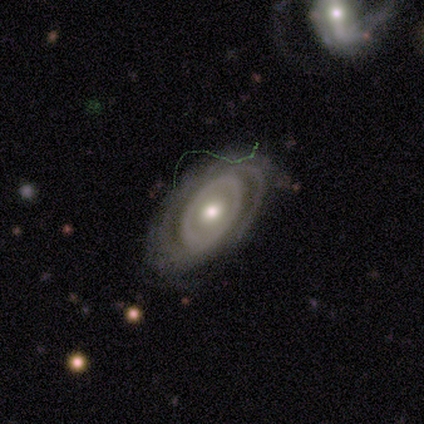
featured or disk 85%, smooth 10%, star or artifact 5%. Down the decision tree: edge-on disk — no (94%); bar — no (87%); spiral arms — yes (71%); spiral arm count — can't tell (45%); spiral winding — tight (82%); bulge size — moderate (65%); merging — none (65%).